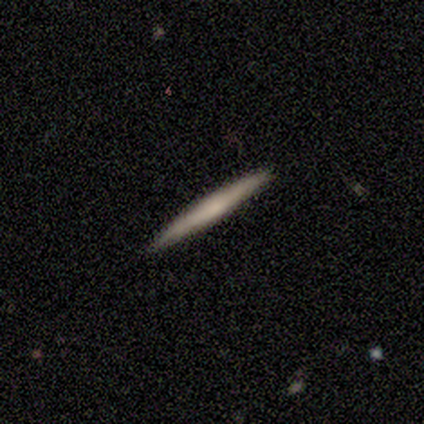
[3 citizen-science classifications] This is likely a smooth galaxy (67%). How rounded: clearly cigar-shaped (100%). Merging: clearly none (100%).